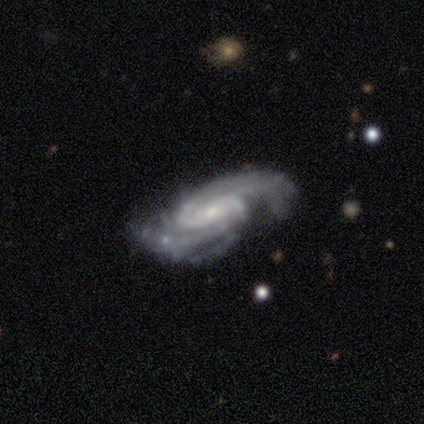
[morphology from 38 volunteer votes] Overall: featured or disk (100%). Edge-on disk: no (95%). Bar: no (56%; weak 33%). Spiral arms: yes (100%). Spiral arm count: 2 (64%). Spiral winding: tight (64%; medium 31%). Bulge size: small (64%; moderate 25%). Merging: none (68%).